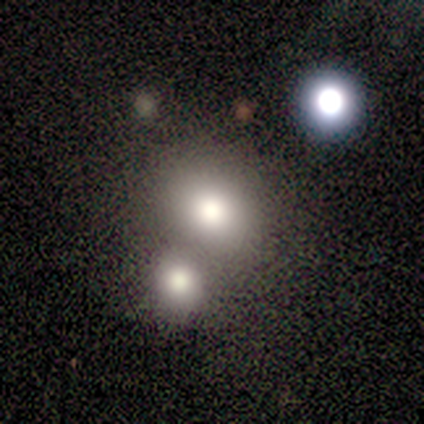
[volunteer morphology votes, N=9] Smooth or featured?
  - smooth: 44% * (tied)
  - star or artifact: 44% * (tied)
  - featured or disk: 11%
How rounded?
  - round: 50% * (tied)
  - in between: 50% * (tied)
  - cigar-shaped: 0%
Merging?
  - none: 60% *
  - merger: 40%
  - minor disturbance: 0%
  - major disturbance: 0%